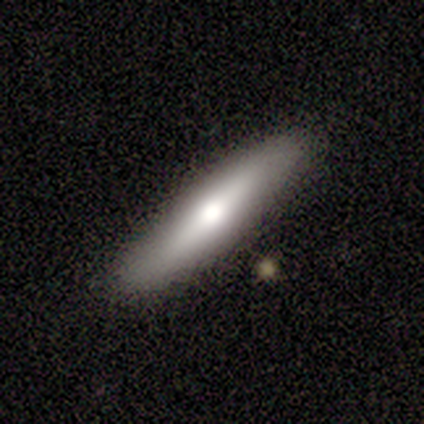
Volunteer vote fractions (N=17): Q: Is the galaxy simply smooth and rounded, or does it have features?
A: smooth — 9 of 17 (53%).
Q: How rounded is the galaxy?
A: cigar-shaped — 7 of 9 (78%).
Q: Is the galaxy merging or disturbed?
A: none — 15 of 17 (88%).